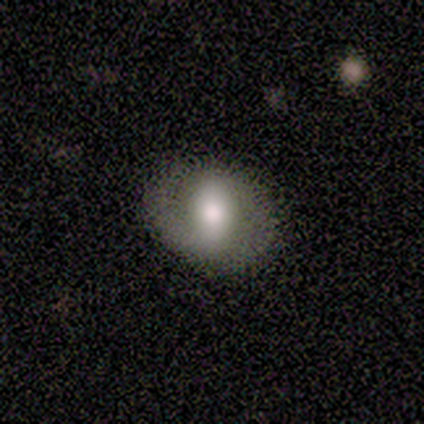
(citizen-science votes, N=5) smooth_or_featured: smooth (p=0.60) [alt: featured or disk p=0.40]
how_rounded: round (p=0.67) [alt: cigar-shaped p=0.33]
merging: none (p=0.60) [alt: minor disturbance p=0.20]